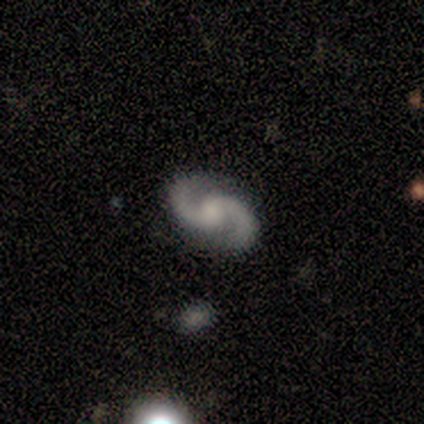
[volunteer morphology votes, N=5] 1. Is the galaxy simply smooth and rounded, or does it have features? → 100% featured or disk, 0% smooth, 0% star or artifact.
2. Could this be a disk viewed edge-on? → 100% no, 0% yes.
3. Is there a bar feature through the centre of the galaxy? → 80% no, 20% weak, 0% strong.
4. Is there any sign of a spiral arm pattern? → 100% yes, 0% no.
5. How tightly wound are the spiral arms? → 40% medium (tied), 40% loose (tied), 20% tight.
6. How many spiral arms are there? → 100% 2, 0% 1, 0% 3, 0% 4, 0% more than 4, 0% can't tell.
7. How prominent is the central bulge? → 40% moderate, 20% large, 20% small, 20% none, 0% dominant.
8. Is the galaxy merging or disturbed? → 100% none, 0% minor disturbance, 0% major disturbance, 0% merger.